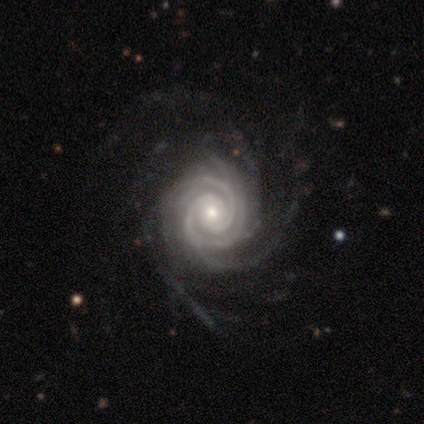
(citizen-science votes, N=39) A featured or disk galaxy (100%) with no bar (74%), more than 4 (41%) tight (79%) spiral arms (100%) and a moderate central bulge (56%).

Vote fractions:
- Smooth or featured? featured or disk: 100% / smooth: 0% / star or artifact: 0%
- Edge-on disk? no: 100% / yes: 0%
- Bar? no: 74% / weak: 21% / strong: 5%
- Spiral arms? yes: 100% / no: 0%
- Spiral winding? tight: 79% / medium: 18% / loose: 3%
- Spiral arm count? more than 4: 41% / 2: 21% / 4: 15% / 3: 13% / can't tell: 10% / 1: 0%
- Bulge size? moderate: 56% / small: 33% / large: 8% / dominant: 3% / none: 0%
- Merging? none: 36% / major disturbance: 13% / minor disturbance: 10% / merger: 3%